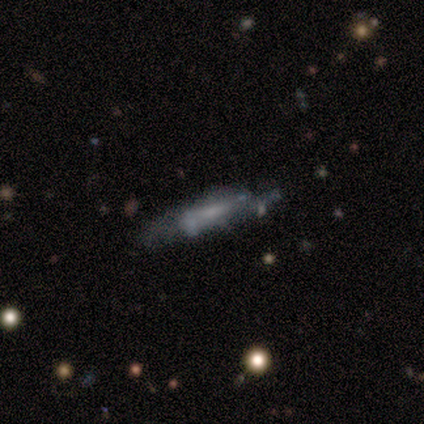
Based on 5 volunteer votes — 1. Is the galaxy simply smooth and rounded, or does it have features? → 60% smooth, 40% featured or disk, 0% star or artifact.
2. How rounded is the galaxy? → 67% cigar-shaped, 33% in between, 0% round.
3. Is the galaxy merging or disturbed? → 80% none, 20% merger, 0% minor disturbance, 0% major disturbance.